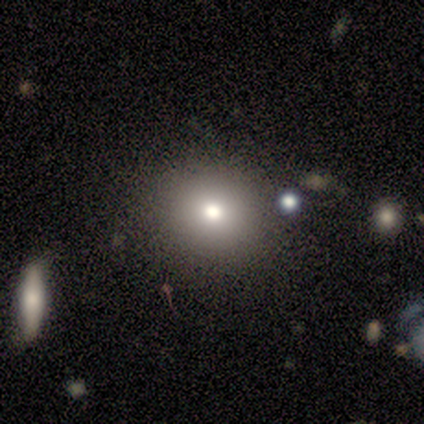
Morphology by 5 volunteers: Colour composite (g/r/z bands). It shows a smooth galaxy with no disk features (80%) that is round (75%). Merging: none (75%).